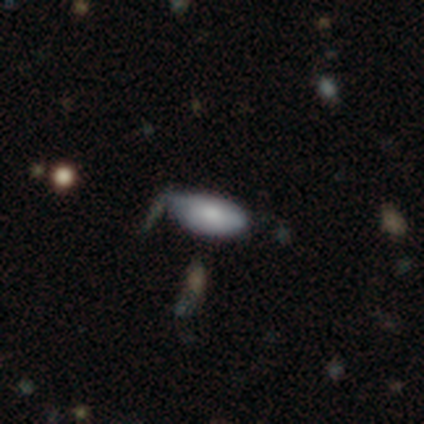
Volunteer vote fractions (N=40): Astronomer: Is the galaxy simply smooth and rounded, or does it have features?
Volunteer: smooth — 75%.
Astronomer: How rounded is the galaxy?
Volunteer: in between — 97%.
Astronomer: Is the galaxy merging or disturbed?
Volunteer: minor disturbance — 47% (runner-up: none, 37%).